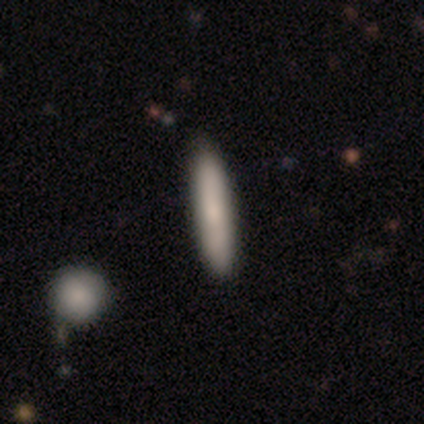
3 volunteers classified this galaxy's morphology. A smooth galaxy with no disk features (67%) that is cigar-shaped (100%). Merging: none (100%).